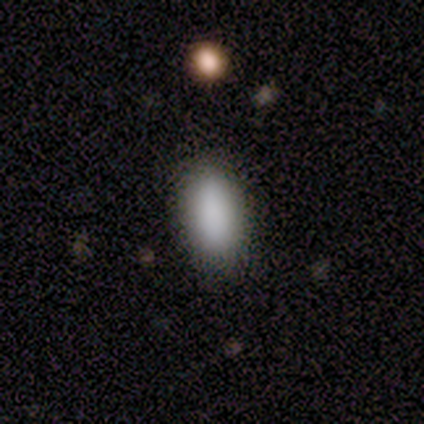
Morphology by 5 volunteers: smooth_or_featured: smooth (p=1.00)
how_rounded: in between (p=0.80) [alt: cigar-shaped p=0.20]
merging: none (p=1.00)